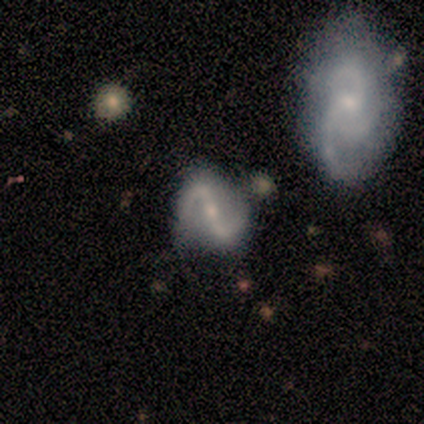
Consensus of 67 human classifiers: smooth-or-featured: featured or disk: 82% | smooth: 12% | star or artifact: 6%
  disk-edge-on: no: 100% | yes: 0%
    bar: strong: 53% | weak: 38% | no: 9%
    has-spiral-arms: yes: 96% | no: 4%
      spiral-winding: loose: 45% | medium: 42% | tight: 13%
      spiral-arm-count: 2: 92% | can't tell: 4% | 3: 2% | more than 4: 2% | 1: 0% | 4: 0%
    bulge-size: small: 47% | moderate: 45% | none: 7% | dominant: 0% | large: 0%
  merging: none: 57% | minor disturbance: 22% | merger: 13% | major disturbance: 8%